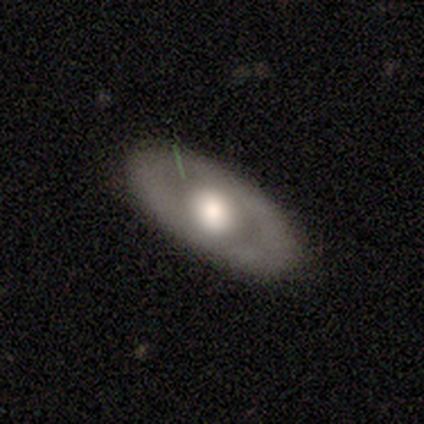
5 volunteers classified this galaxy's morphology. Overall: featured or disk (60%; smooth 40%). Edge-on disk: no (67%; yes 33%). Bar: weak (50%, tied with no). Spiral arms: no (100%). Bulge size: large (50%, tied with moderate). Merging: none (100%).